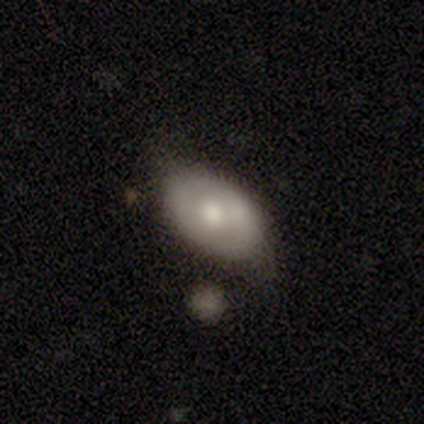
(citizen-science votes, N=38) Smooth or featured? 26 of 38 (68%) said smooth. How rounded? 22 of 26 (85%) said in between. Merging? 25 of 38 (66%) said none.